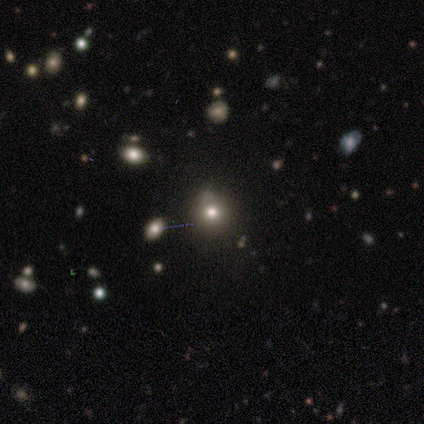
This is likely a smooth galaxy (75%). How rounded: clearly round (100%). Merging: clearly none (100%).